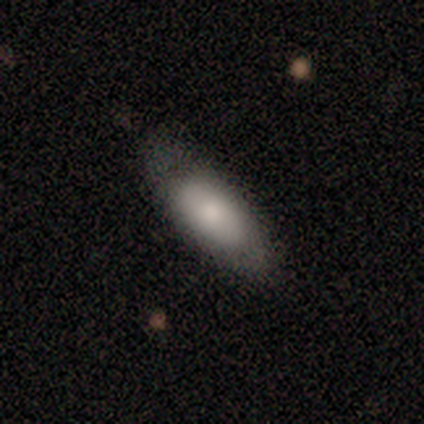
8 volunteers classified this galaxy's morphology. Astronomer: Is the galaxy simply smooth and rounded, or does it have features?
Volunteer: featured or disk — 62%.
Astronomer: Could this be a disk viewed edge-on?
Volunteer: no — 60% (runner-up: yes, 40%).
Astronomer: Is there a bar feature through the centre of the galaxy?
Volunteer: no — 100%.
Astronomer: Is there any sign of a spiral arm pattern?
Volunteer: no — 100%.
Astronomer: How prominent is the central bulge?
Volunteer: large — 33%, tied with moderate and small at 33%.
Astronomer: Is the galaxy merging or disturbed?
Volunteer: minor disturbance — 75%.